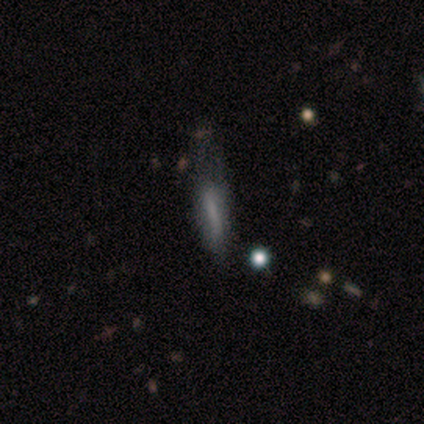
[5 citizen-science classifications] This is likely a featured or disk galaxy (60%). It is likely not viewed edge-on (67%). Bar: possibly weak (50%, tied with no). Spiral arm pattern: possibly yes (50%, tied with no). Spiral arm count: clearly can't tell (100%). Spiral winding: clearly loose (100%). Central bulge: possibly moderate (50%, tied with none). Merging: likely none (75%).